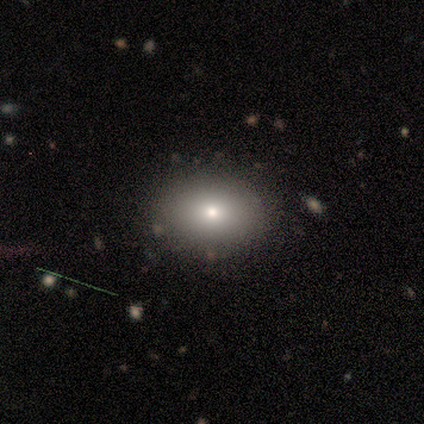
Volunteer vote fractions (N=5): Smooth or featured?
  - smooth: 100% *
  - featured or disk: 0%
  - star or artifact: 0%
How rounded?
  - in between: 80% *
  - round: 20%
  - cigar-shaped: 0%
Merging?
  - none: 100% *
  - minor disturbance: 0%
  - major disturbance: 0%
  - merger: 0%